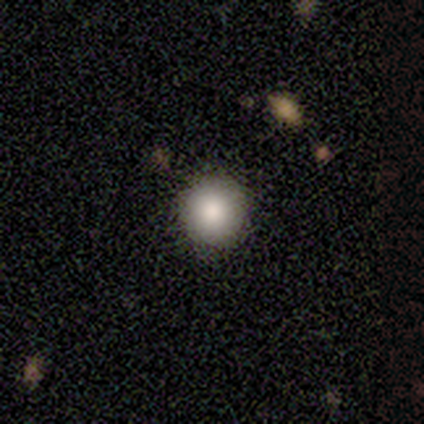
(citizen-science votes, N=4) smooth_or_featured: smooth (p=1.00)
how_rounded: round (p=1.00)
merging: none (p=1.00)